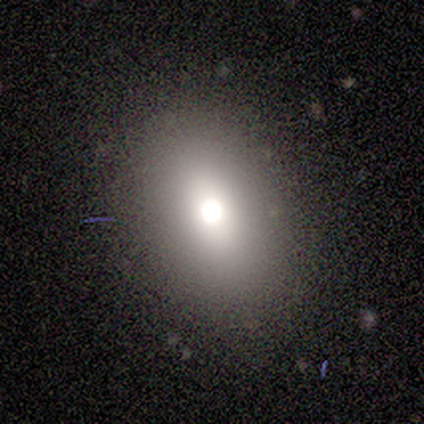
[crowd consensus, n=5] Smooth or featured?
  - smooth: 40% * (tied)
  - star or artifact: 40% * (tied)
  - featured or disk: 20%
How rounded?
  - in between: 100% *
  - round: 0%
  - cigar-shaped: 0%
Merging?
  - none: 67% *
  - minor disturbance: 33%
  - major disturbance: 0%
  - merger: 0%